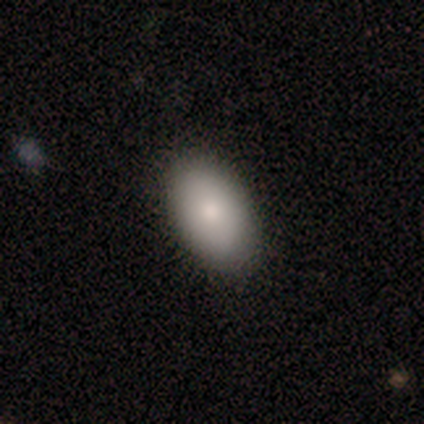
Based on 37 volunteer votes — smooth_or_featured: smooth (p=0.81) [alt: featured or disk p=0.16]
how_rounded: in between (p=1.00)
merging: none (p=0.86) [alt: minor disturbance p=0.11]